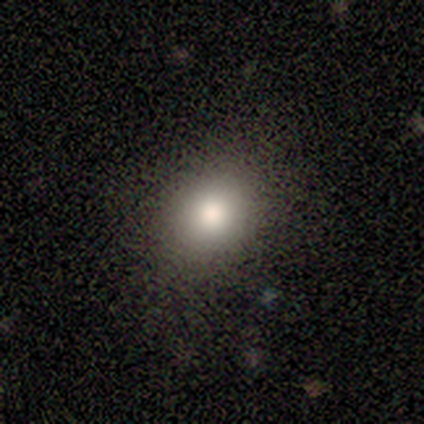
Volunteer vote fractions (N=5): smooth 80%, star or artifact 20%, featured or disk 0%. Down the decision tree: how rounded — round (100%); merging — none (75%).